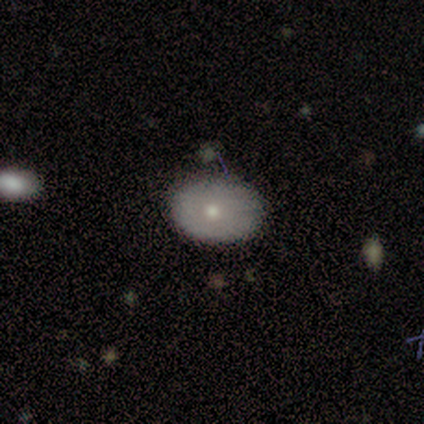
This appears to be a smooth galaxy with no disk features (60%) that is in between round and cigar-shaped (100%). Merging: none (75%).